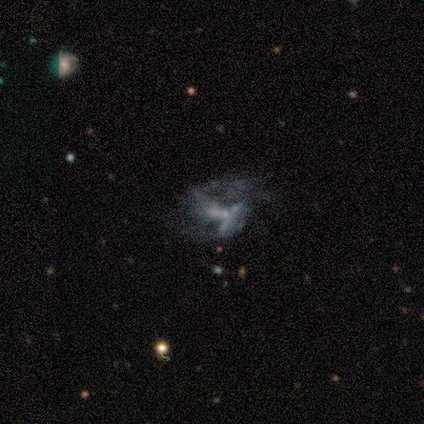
smooth-or-featured: featured or disk: 64% | star or artifact: 26% | smooth: 10%
  disk-edge-on: no: 100% | yes: 0%
    bar: no: 68% | strong: 16% | weak: 16%
    has-spiral-arms: no: 80% | yes: 20%
    bulge-size: small: 56% | none: 40% | moderate: 4% | dominant: 0% | large: 0%
  merging: major disturbance: 38% | none: 28% | minor disturbance: 21% | merger: 14%